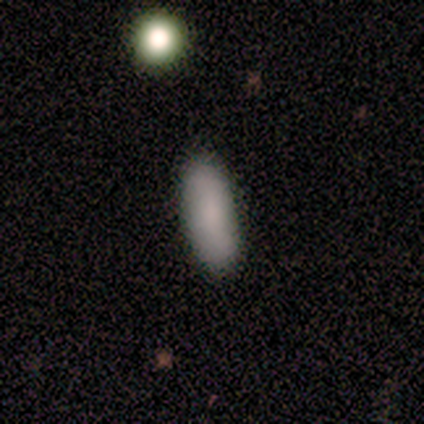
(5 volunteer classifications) A smooth galaxy with no disk features (100%) that is in between round and cigar-shaped (100%). Merging: none (100%).